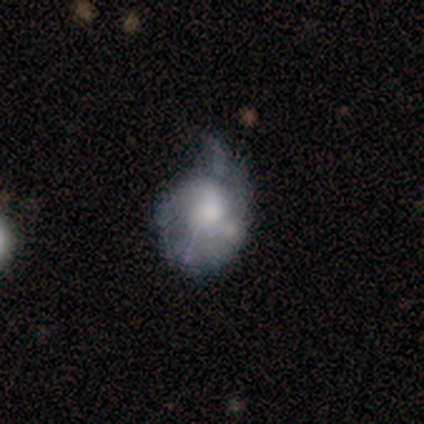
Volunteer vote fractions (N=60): Smooth or featured: featured or disk — 67% (smooth — 30%)
Edge-on disk: no — 98% (yes — 2%)
Bar: no — 87% (weak — 13%)
Spiral arms: yes — 51% (no — 49%)
Spiral winding: tight — 35% (tied with medium — 35%)
Spiral arm count: 1 — 45% (can't tell — 35%)
Bulge size: large — 36% (moderate — 33%)
Merging: minor disturbance — 41% (major disturbance — 34%)